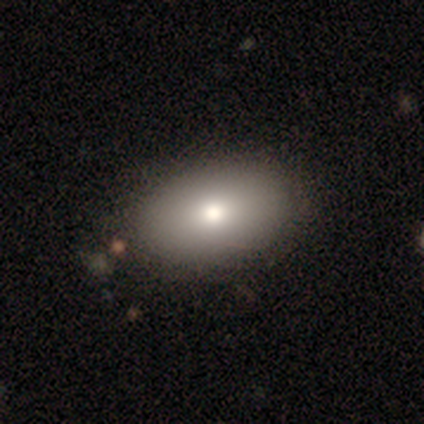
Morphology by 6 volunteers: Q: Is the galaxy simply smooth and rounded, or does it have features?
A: smooth — 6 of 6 (100%).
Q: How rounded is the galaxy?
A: in between — 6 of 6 (100%).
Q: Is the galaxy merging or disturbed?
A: none — 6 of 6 (100%).